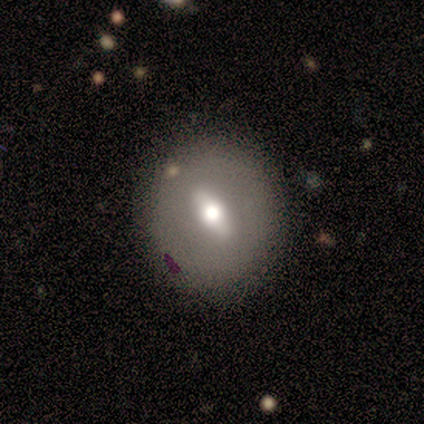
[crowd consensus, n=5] featured or disk 80%, smooth 20%, star or artifact 0%. Down the decision tree: edge-on disk — no (75%); bar — weak (67%); spiral arms — no (100%); bulge size — moderate (100%); merging — none (100%).